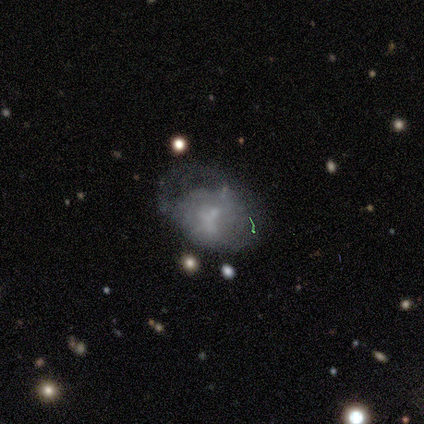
Smooth or featured: smooth — 50% (featured or disk — 25%)
How rounded: in between — 100%
Merging: none — 33% (tied with minor disturbance — 33%; major disturbance — 33%)